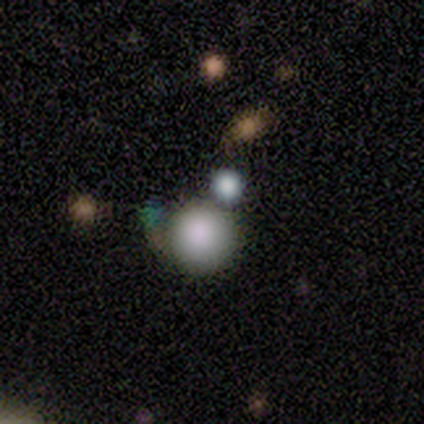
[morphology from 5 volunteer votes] Overall: smooth (80%). How rounded: round (100%). Merging: none (50%, tied with merger).